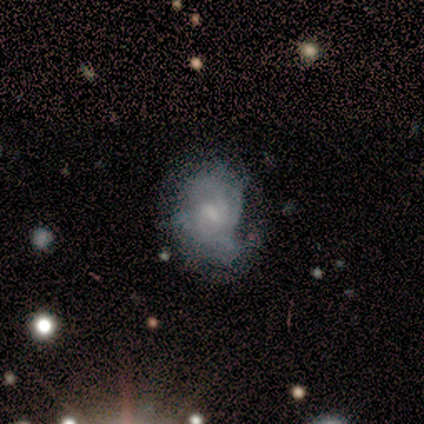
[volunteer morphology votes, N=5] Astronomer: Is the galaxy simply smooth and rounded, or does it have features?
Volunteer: featured or disk — 100%.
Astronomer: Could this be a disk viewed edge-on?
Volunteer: no — 100%.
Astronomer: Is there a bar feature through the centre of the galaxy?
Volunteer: weak — 80%.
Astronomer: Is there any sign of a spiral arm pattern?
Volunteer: yes — 80%.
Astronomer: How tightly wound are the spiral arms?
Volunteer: medium — 75%.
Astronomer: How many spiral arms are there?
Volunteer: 1 — 50%.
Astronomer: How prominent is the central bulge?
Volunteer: moderate — 60% (runner-up: small, 40%).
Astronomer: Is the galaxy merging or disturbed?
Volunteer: none — 60%.